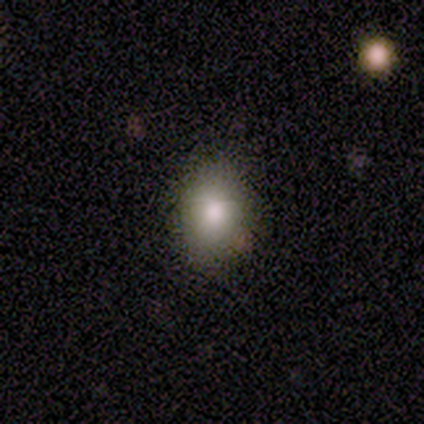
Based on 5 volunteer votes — smooth-or-featured: smooth: 100% | featured or disk: 0% | star or artifact: 0%
  how-rounded: in between: 60% | round: 40% | cigar-shaped: 0%
  merging: none: 60% | minor disturbance: 40% | major disturbance: 0% | merger: 0%